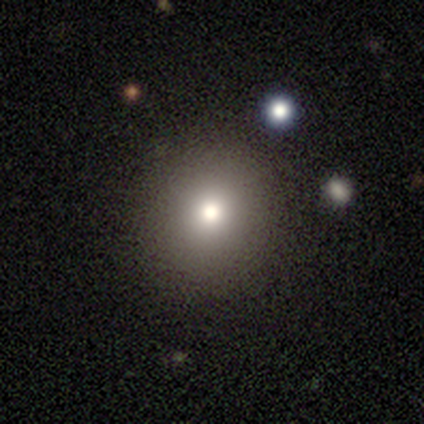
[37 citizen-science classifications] This appears to be a smooth galaxy with no disk features (65%) that is round (83%). Merging: none (93%).